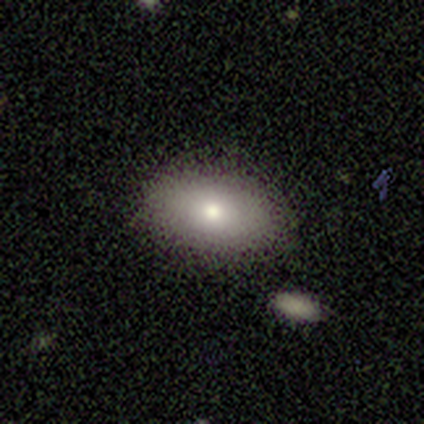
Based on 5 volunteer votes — smooth 100%, featured or disk 0%, star or artifact 0%. Down the decision tree: how rounded — in between (100%); merging — minor disturbance (60%).